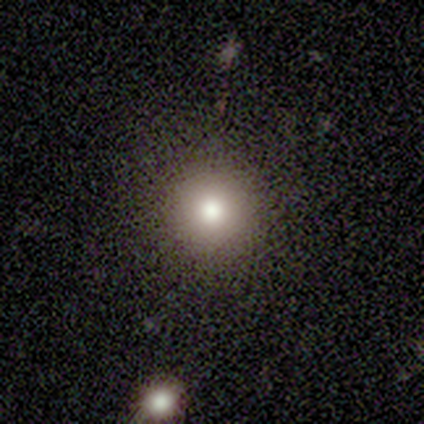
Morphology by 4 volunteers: This is possibly a smooth galaxy (50%). How rounded: clearly round (100%). Merging: clearly none (100%).